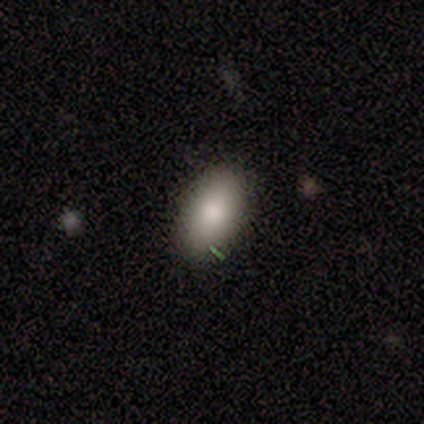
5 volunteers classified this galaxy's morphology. Smooth or featured?
  - smooth: 60% *
  - featured or disk: 20%
  - star or artifact: 20%
How rounded?
  - in between: 100% *
  - round: 0%
  - cigar-shaped: 0%
Merging?
  - none: 75% *
  - minor disturbance: 25%
  - major disturbance: 0%
  - merger: 0%